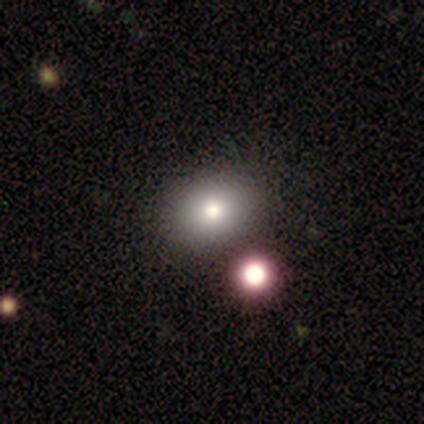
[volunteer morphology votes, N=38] smooth_or_featured: smooth (p=0.79) [alt: featured or disk p=0.13]
how_rounded: in between (p=0.70) [alt: round p=0.30]
merging: none (p=0.66) [alt: merger p=0.17]